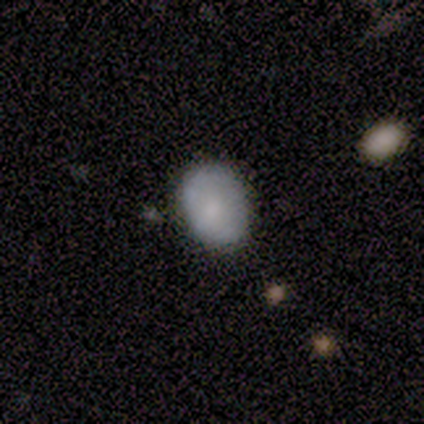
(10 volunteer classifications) smooth-or-featured: smooth: 80% | featured or disk: 10% | star or artifact: 10%
  how-rounded: in between: 62% | round: 38% | cigar-shaped: 0%
  merging: none: 89% | minor disturbance: 11% | major disturbance: 0% | merger: 0%